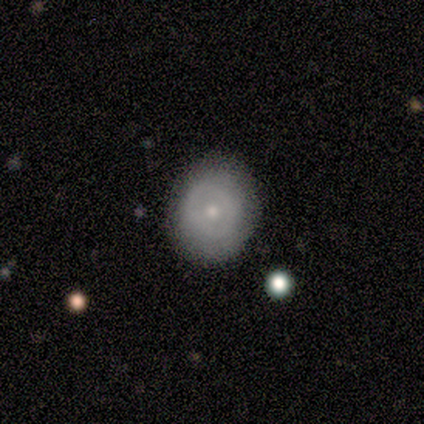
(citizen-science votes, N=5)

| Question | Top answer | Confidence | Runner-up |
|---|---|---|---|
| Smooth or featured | smooth | 100% | — |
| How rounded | round | 60% | in between (40%) |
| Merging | none | 100% | — |